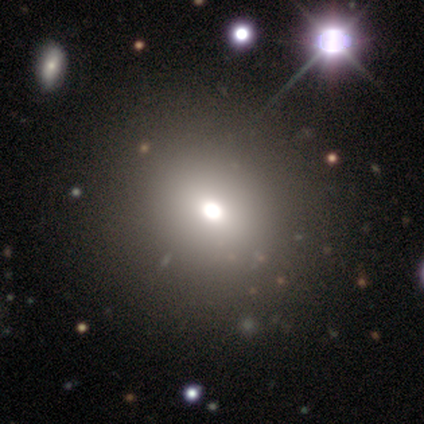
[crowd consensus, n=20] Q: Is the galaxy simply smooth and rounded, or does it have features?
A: smooth — 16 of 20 (80%).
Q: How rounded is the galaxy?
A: round — 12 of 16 (75%).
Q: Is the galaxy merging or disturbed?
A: none — 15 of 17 (88%).